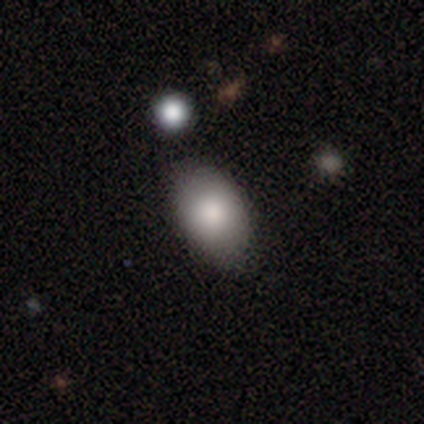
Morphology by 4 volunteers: type=smooth (100%); roundness=in between (100%); merging=none (75%).